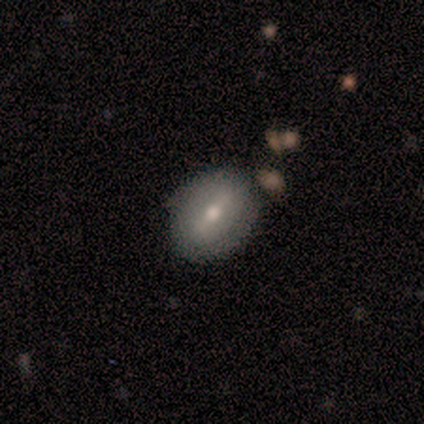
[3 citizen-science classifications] Overall: smooth (67%; star or artifact 33%). How rounded: in between (100%). Merging: none (100%).